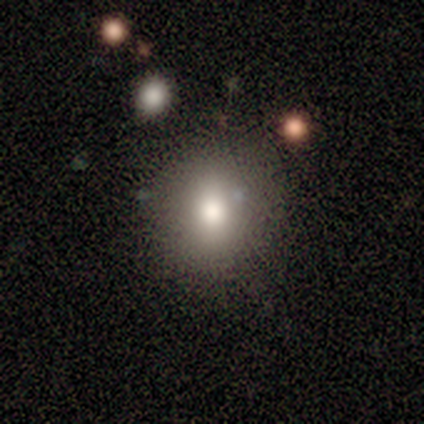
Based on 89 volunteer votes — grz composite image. It shows a smooth galaxy with no disk features (71%) that is round (76%). Merging: none (78%).